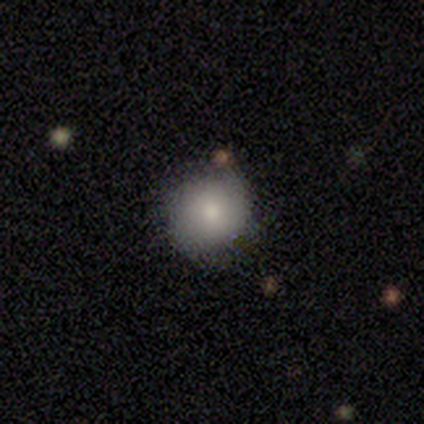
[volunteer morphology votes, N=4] type=smooth (100%); roundness=round (50%, tied with in between); merging=none (75%).